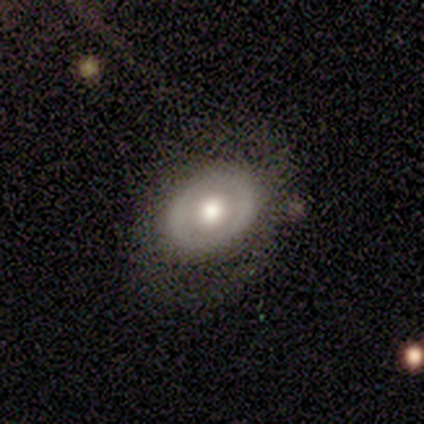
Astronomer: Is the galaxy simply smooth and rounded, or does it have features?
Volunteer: featured or disk — 58% (runner-up: smooth, 42%).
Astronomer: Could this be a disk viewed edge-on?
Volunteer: no — 100%.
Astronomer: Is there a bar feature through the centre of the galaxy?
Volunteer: no — 71%.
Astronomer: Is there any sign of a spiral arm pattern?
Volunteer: no — 71%.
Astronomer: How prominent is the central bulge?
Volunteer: moderate — 100%.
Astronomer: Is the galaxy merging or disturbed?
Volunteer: none — 75%.